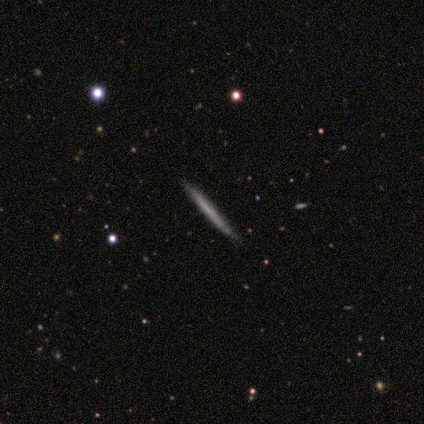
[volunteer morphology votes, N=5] Smooth or featured? featured or disk (60%)
Edge-on disk? yes (100%)
Edge-on bulge? none (100%)
Merging? none (100%)